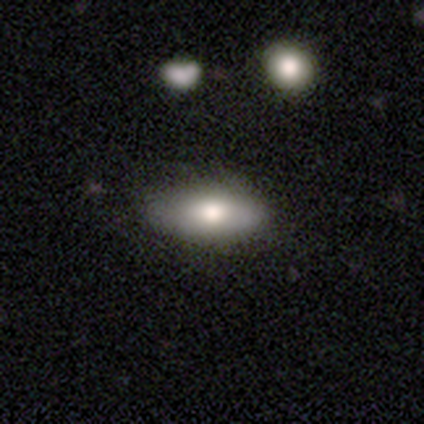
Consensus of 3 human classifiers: A smooth galaxy with no disk features (100%) that is in between round and cigar-shaped (100%).

Vote fractions:
- Smooth or featured? smooth: 100% / featured or disk: 0% / star or artifact: 0%
- How rounded? in between: 100% / round: 0% / cigar-shaped: 0%
- Merging? none: 100% / minor disturbance: 0% / major disturbance: 0% / merger: 0%